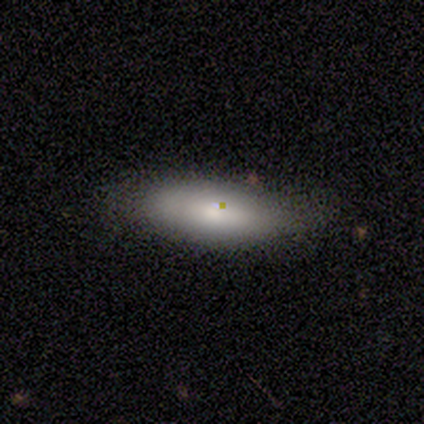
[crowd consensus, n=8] This is clearly a smooth galaxy (100%). How rounded: likely cigar-shaped (62%). Merging: clearly none (88%).